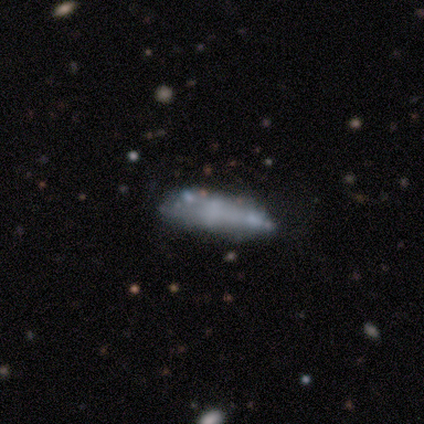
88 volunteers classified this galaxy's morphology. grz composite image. It shows a smooth galaxy with no disk features (55%) that is cigar-shaped (65%). Merging: none (47%).